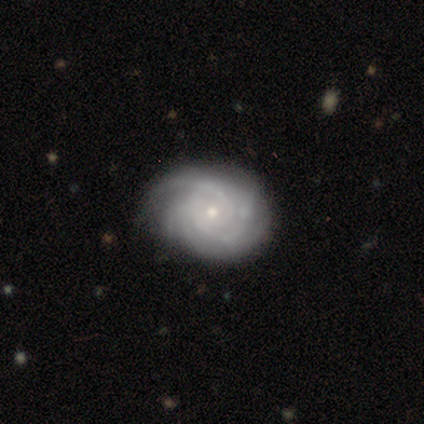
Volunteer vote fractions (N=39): This is clearly a featured or disk galaxy (85%). It is clearly not viewed edge-on (100%). Bar: clearly no (82%). Spiral arm pattern: clearly yes (97%). Spiral arm count: marginally 3 (38%). Spiral winding: clearly tight (91%). Central bulge: likely small (76%). Merging: likely none (65%).